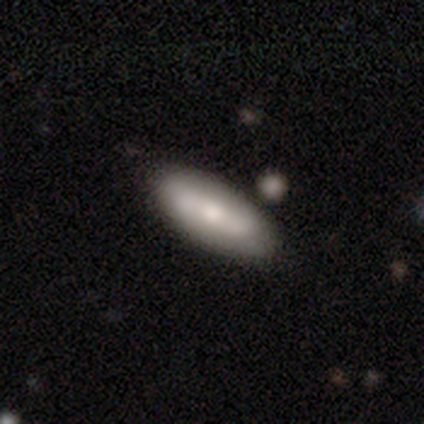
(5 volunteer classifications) Overall: smooth (40%, tied with featured or disk). How rounded: in between (100%). Merging: none (100%).